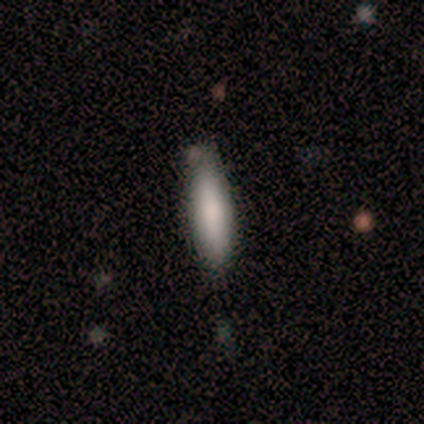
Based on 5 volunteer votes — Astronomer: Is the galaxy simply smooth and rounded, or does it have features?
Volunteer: smooth — 80%.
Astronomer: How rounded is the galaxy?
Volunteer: cigar-shaped — 75%.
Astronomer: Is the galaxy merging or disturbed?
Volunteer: none — 60% (runner-up: minor disturbance, 40%).